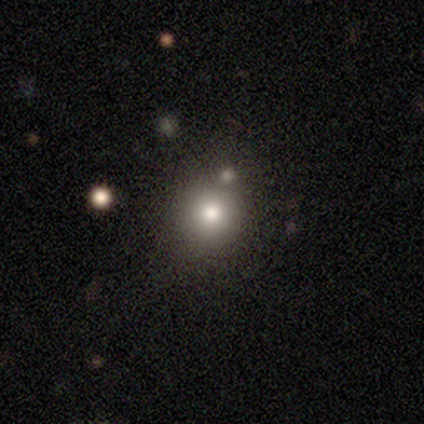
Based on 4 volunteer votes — Smooth or featured? 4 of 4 (100%) said smooth. How rounded? 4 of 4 (100%) said round. Merging? 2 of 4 (50%, tied with minor disturbance) said none.